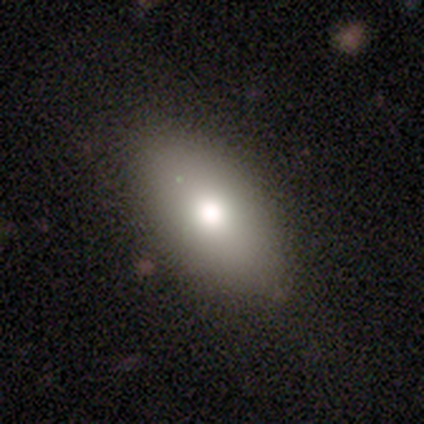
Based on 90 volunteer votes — smooth 84%, featured or disk 11%, star or artifact 4%. Down the decision tree: how rounded — in between (91%); merging — none (69%).